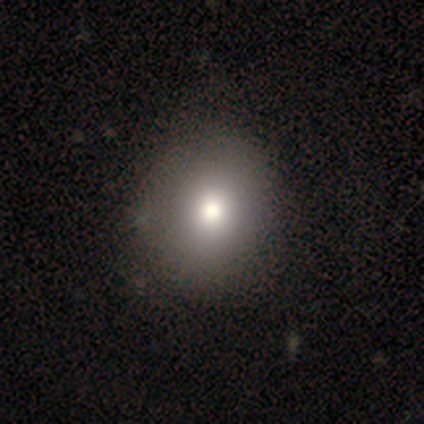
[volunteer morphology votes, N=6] Smooth or featured?
  - smooth: 67% *
  - featured or disk: 17%
  - star or artifact: 17%
How rounded?
  - round: 50% * (tied)
  - in between: 50% * (tied)
  - cigar-shaped: 0%
Merging?
  - none: 80% *
  - minor disturbance: 20%
  - major disturbance: 0%
  - merger: 0%